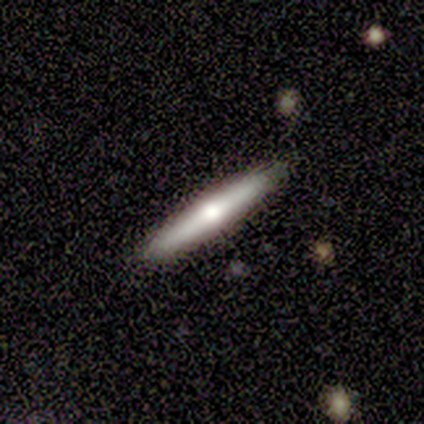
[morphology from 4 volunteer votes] This appears to be a featured or disk galaxy (75%) viewed edge-on (100%) with no central bulge (67%). Merging: none (100%).